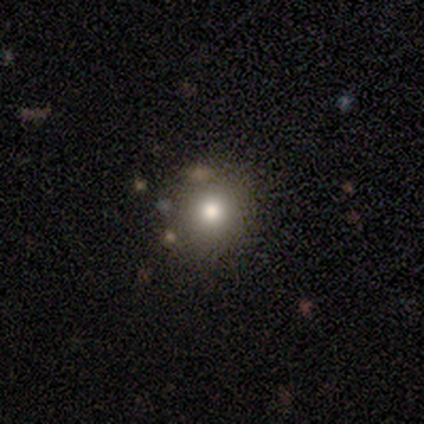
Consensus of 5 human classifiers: smooth 80%, star or artifact 20%, featured or disk 0%. Down the decision tree: how rounded — round (100%); merging — none (100%).